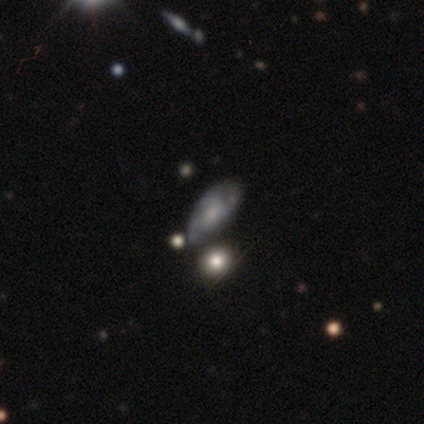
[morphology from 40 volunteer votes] A featured or disk galaxy (55%) with no bar (77%), 3 (50%) medium (56%) spiral arms (82%) and a small central bulge (45%).

Vote fractions:
- Smooth or featured? featured or disk: 55% / smooth: 32% / star or artifact: 12%
- Edge-on disk? no: 100% / yes: 0%
- Bar? no: 77% / weak: 23% / strong: 0%
- Spiral arms? yes: 82% / no: 18%
- Spiral winding? medium: 56% / tight: 28% / loose: 17%
- Spiral arm count? 3: 50% / can't tell: 33% / 2: 11% / 1: 6% / 4: 0% / more than 4: 0%
- Bulge size? small: 45% / moderate: 27% / none: 23% / large: 5% / dominant: 0%
- Merging? none: 43% / merger: 20% / minor disturbance: 11% / major disturbance: 9%